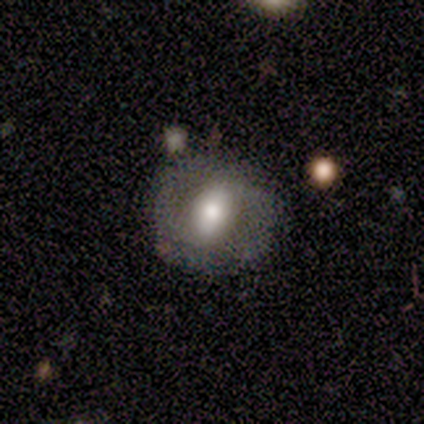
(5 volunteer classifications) Smooth or featured?
  - featured or disk: 60% *
  - smooth: 40%
  - star or artifact: 0%
Edge-on disk?
  - no: 100% *
  - yes: 0%
Bar?
  - weak: 67% *
  - strong: 33%
  - no: 0%
Spiral arms?
  - yes: 67% *
  - no: 33%
Spiral winding?
  - medium: 100% *
  - tight: 0%
  - loose: 0%
Spiral arm count?
  - 2: 100% *
  - 1: 0%
  - 3: 0%
  - 4: 0%
  - more than 4: 0%
  - can't tell: 0%
Bulge size?
  - large: 100% *
  - dominant: 0%
  - moderate: 0%
  - small: 0%
  - none: 0%
Merging?
  - none: 60% *
  - minor disturbance: 20%
  - major disturbance: 20%
  - merger: 0%